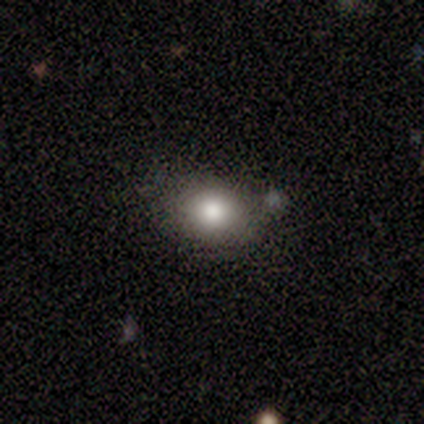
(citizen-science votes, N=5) Q: Smooth or featured?
A: smooth (100%)
Q: How rounded?
A: round (60%); runner-up: in between (40%)
Q: Merging?
A: none (100%)